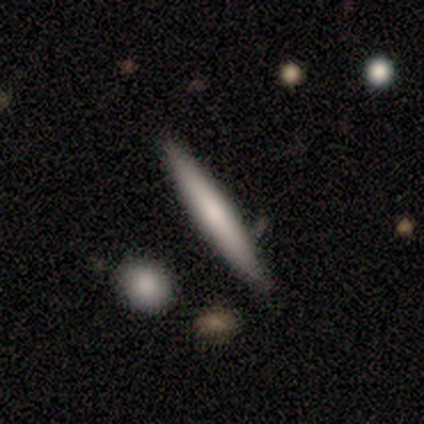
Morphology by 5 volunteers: smooth_or_featured: smooth (p=0.80) [alt: featured or disk p=0.20]
how_rounded: cigar-shaped (p=1.00)
merging: none (p=0.60) [alt: minor disturbance p=0.20]